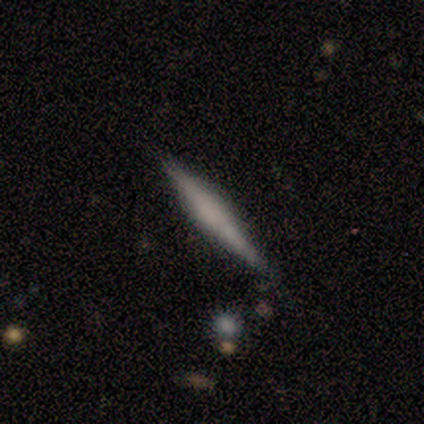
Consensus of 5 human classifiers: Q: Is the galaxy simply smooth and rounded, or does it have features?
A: featured or disk — 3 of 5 (60%).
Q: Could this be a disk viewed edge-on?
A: yes — 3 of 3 (100%).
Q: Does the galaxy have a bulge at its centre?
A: boxy — 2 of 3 (67%).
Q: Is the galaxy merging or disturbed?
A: none — 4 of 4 (100%).